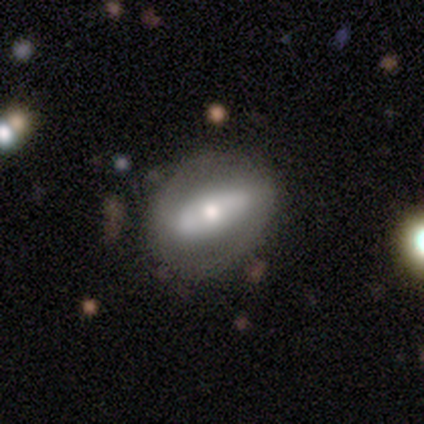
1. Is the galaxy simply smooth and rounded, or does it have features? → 47% smooth (tied), 47% featured or disk (tied), 7% star or artifact.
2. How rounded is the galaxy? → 93% in between, 7% round, 0% cigar-shaped.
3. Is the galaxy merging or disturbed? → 64% none, 32% minor disturbance, 4% major disturbance, 0% merger.